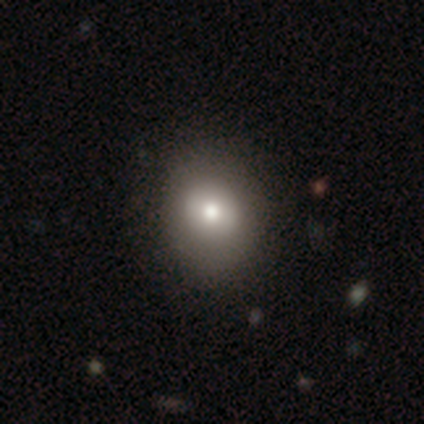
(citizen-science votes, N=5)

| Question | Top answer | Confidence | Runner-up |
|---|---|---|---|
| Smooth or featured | smooth | 40% | tied: star or artifact (40%) |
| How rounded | round | 100% | — |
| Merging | none | 100% | — |